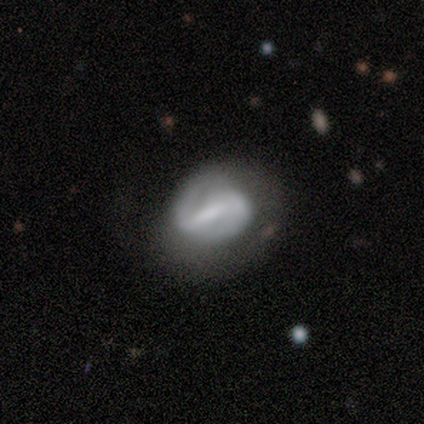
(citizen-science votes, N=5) Smooth or featured: featured or disk — 100%
Edge-on disk: no — 100%
Bar: strong — 60% (weak — 20%)
Spiral arms: yes — 60% (no — 40%)
Spiral winding: medium — 67% (tight — 33%)
Spiral arm count: 2 — 67% (can't tell — 33%)
Bulge size: none — 60% (moderate — 40%)
Merging: none — 60% (minor disturbance — 20%)